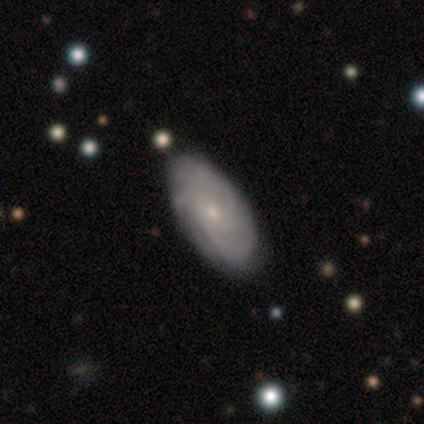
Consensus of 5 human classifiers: A featured or disk galaxy (100%) with no bar (100%), medium (60%) spiral arms (100%) and a small central bulge (80%). Merging: none (80%).